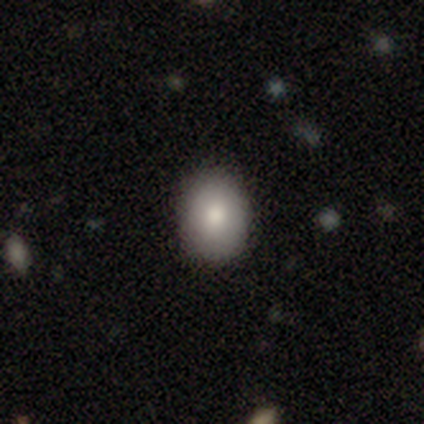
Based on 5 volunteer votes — Smooth or featured? 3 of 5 (60%) said smooth. How rounded? 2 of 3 (67%) said in between. Merging? 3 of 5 (60%) said none.